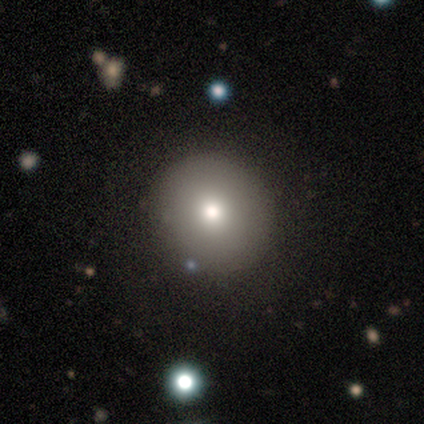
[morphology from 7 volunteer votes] Volunteers were most divided on "smooth or featured": smooth: 86%, featured or disk: 14%, star or artifact: 0%. More confident: how rounded — round (100%); merging — none (86%).